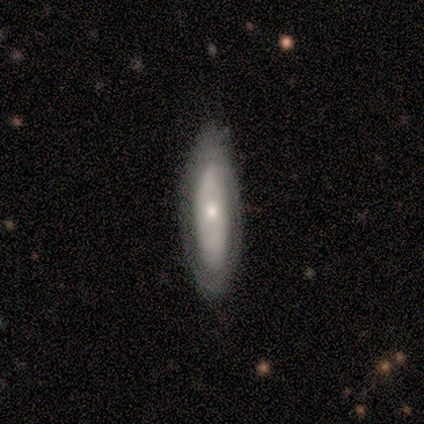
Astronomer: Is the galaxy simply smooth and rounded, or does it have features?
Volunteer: smooth — 48% (runner-up: featured or disk, 44%).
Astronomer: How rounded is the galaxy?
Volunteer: in between — 52% (runner-up: cigar-shaped, 48%).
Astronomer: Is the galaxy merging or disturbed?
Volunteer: none — 83%.